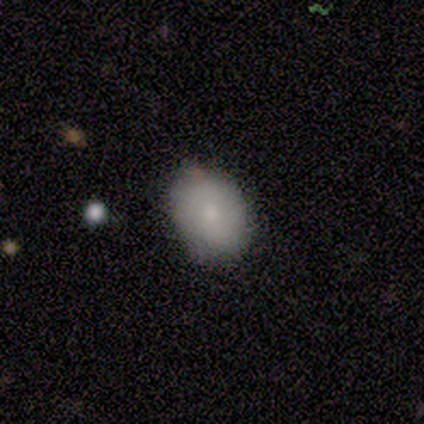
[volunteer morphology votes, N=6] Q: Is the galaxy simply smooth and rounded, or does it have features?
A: smooth — 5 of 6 (83%).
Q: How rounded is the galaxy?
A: in between — 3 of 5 (60%).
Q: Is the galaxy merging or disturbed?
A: none — 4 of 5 (80%).